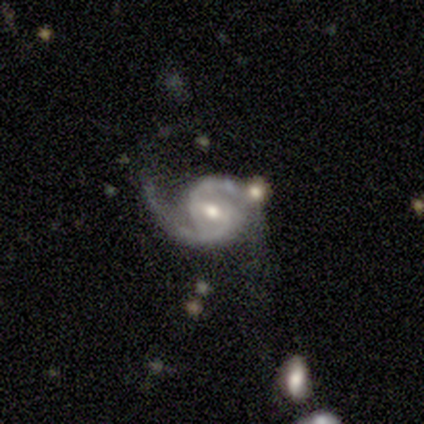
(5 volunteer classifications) Q: Smooth or featured?
A: featured or disk (100%)
Q: Edge-on disk?
A: no (100%)
Q: Bar?
A: weak (100%)
Q: Spiral arms?
A: yes (100%)
Q: Spiral winding?
A: medium (60%); runner-up: tight (20%)
Q: Spiral arm count?
A: 2 (100%)
Q: Bulge size?
A: moderate (100%)
Q: Merging?
A: none (60%); runner-up: minor disturbance (20%)